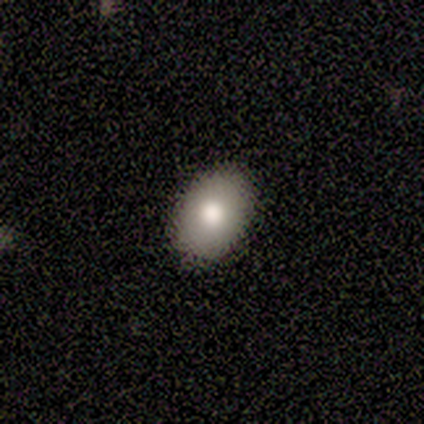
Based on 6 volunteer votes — Smooth or featured?
  - smooth: 67% *
  - featured or disk: 33%
  - star or artifact: 0%
How rounded?
  - in between: 75% *
  - round: 25%
  - cigar-shaped: 0%
Merging?
  - none: 83% *
  - minor disturbance: 17%
  - major disturbance: 0%
  - merger: 0%